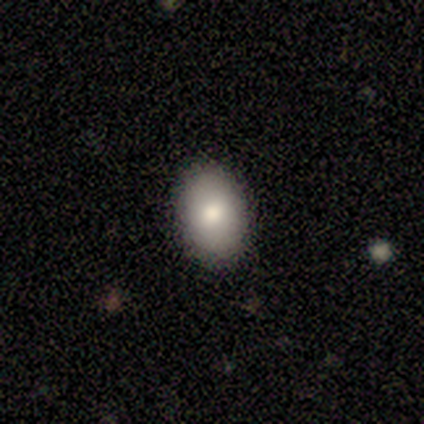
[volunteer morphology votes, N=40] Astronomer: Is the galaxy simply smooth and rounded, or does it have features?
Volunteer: smooth — 78%.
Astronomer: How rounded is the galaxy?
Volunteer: in between — 74%.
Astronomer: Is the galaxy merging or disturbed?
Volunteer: none — 94%.